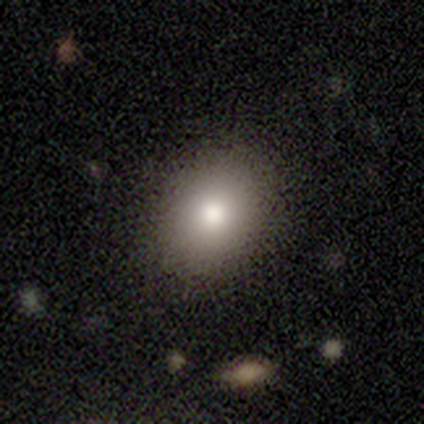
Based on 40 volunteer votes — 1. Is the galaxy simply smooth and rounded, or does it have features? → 90% smooth, 8% star or artifact, 2% featured or disk.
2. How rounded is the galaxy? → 50% round (tied), 50% in between (tied), 0% cigar-shaped.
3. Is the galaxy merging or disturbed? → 86% none, 8% minor disturbance, 5% major disturbance, 0% merger.